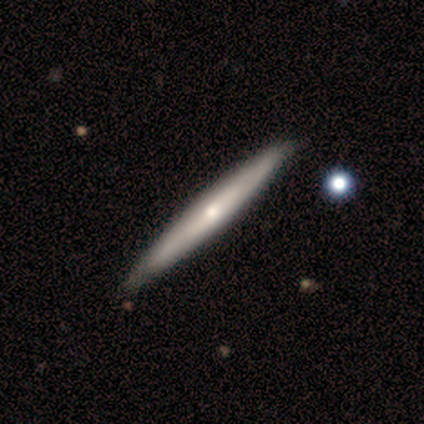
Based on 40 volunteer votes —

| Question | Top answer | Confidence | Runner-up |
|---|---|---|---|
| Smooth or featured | featured or disk | 80% | smooth (20%) |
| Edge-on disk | yes | 88% | no (12%) |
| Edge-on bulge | rounded | 75% | none (25%) |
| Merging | none | 62% | minor disturbance (8%) |